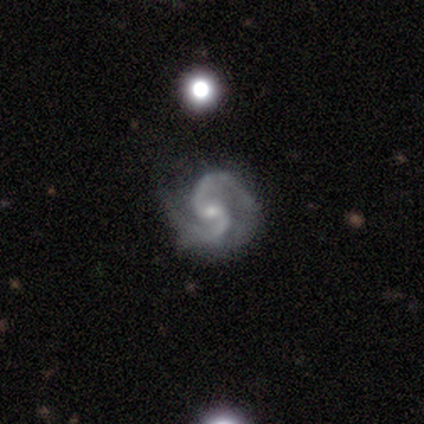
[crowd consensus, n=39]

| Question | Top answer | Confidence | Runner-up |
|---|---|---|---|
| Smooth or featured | featured or disk | 92% | star or artifact (8%) |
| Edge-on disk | no | 97% | yes (3%) |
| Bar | no | 54% | weak (43%) |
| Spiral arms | yes | 100% | — |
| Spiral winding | medium | 57% | loose (26%) |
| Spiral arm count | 2 | 100% | — |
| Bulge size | small | 77% | moderate (23%) |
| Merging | none | 69% | minor disturbance (25%) |